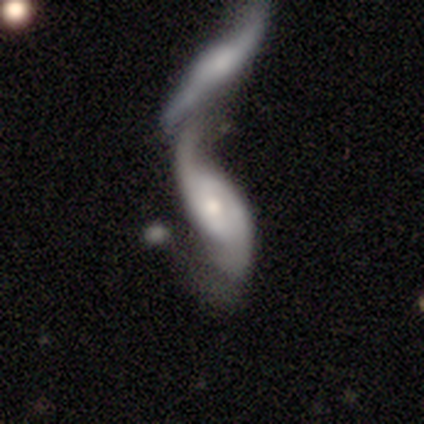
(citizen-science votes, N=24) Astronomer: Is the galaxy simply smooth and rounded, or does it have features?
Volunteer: featured or disk — 75%.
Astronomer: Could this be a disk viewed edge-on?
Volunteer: no — 89%.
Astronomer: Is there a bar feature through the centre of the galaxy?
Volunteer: no — 50% (runner-up: weak, 38%).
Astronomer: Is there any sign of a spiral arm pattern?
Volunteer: yes — 94%.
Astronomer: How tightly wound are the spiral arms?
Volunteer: loose — 80%.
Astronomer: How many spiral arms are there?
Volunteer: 2 — 93%.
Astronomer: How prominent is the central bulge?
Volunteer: moderate — 50%, tied with small at 50%.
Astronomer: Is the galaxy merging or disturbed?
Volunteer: merger — 82%.